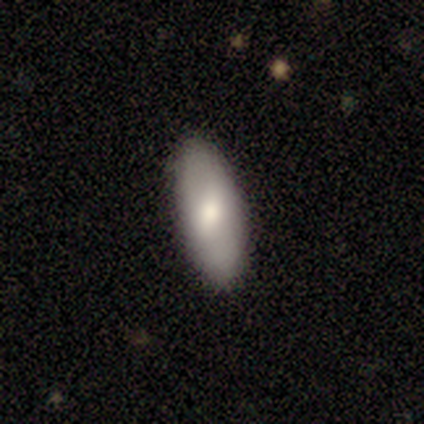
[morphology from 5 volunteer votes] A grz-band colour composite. It shows a smooth galaxy with no disk features (60%) that is in between round and cigar-shaped (100%). Merging: none (100%).